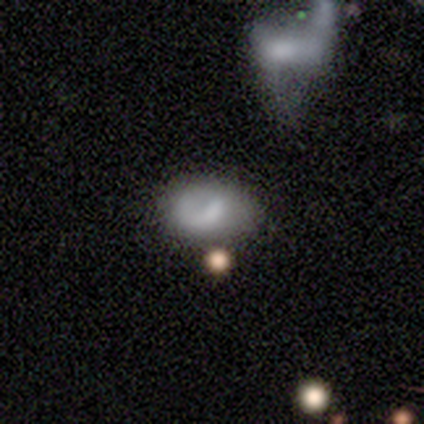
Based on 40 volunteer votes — Morphology: type=smooth (55%); roundness=in between (86%); merging=none (42%).